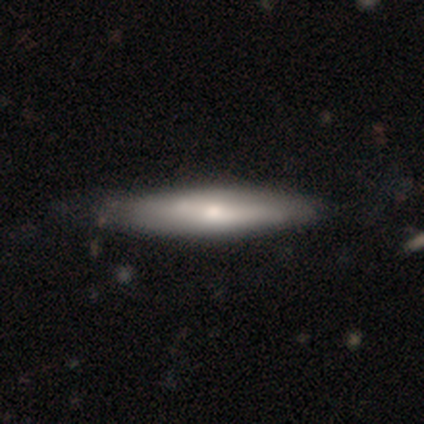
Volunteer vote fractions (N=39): smooth_or_featured: smooth (p=0.56) [alt: featured or disk p=0.44]
how_rounded: cigar-shaped (p=0.82) [alt: in between p=0.18]
merging: none (p=0.49) [alt: minor disturbance p=0.15]